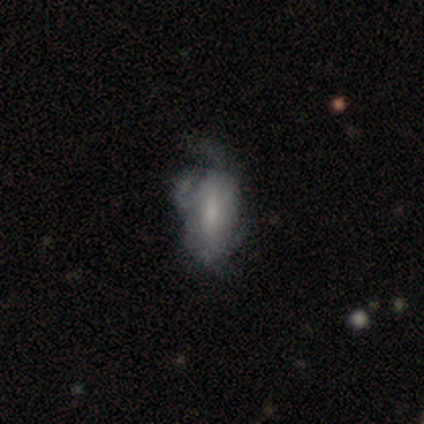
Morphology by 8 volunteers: Q: Smooth or featured?
A: smooth (75%); runner-up: featured or disk (25%)
Q: How rounded?
A: in between (83%); runner-up: round (17%)
Q: Merging?
A: major disturbance (50%); runner-up: none (38%)